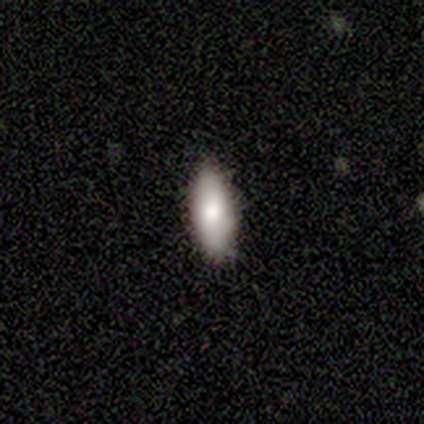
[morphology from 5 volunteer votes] Smooth or featured? 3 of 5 (60%) said featured or disk. Edge-on disk? 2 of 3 (67%) said yes. Edge-on bulge? 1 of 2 (50%, tied with rounded) said none. Merging? 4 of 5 (80%) said none.